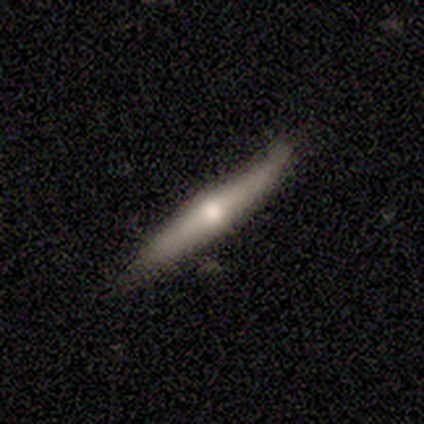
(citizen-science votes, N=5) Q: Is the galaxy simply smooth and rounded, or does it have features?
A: featured or disk — 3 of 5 (60%).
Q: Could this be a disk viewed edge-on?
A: yes — 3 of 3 (100%).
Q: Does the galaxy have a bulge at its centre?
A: rounded — 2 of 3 (67%).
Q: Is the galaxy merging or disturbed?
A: none — 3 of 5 (60%).